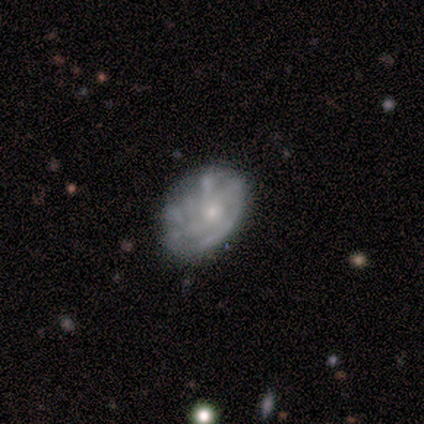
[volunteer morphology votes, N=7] Smooth or featured? 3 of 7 (43%) said smooth. How rounded? 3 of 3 (100%) said in between. Merging? 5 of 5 (100%) said none.